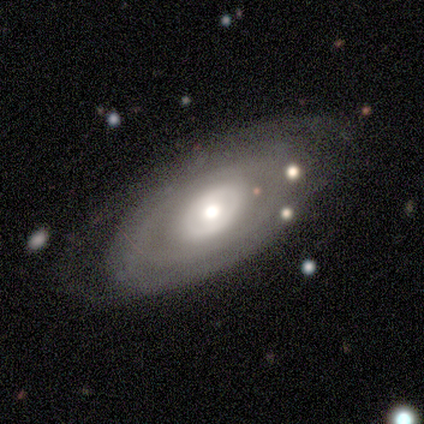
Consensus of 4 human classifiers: Smooth or featured? 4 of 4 (100%) said featured or disk. Edge-on disk? 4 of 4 (100%) said no. Bar? 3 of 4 (75%) said no. Spiral arms? 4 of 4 (100%) said no. Bulge size? 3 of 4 (75%) said moderate. Merging? 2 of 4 (50%) said none.